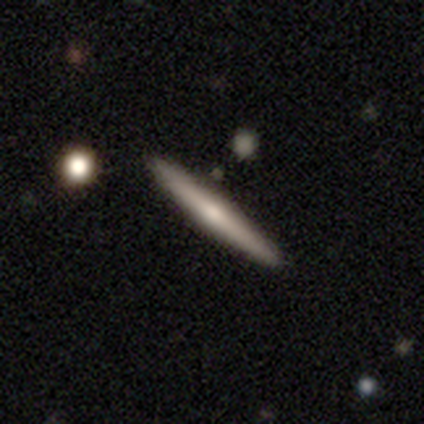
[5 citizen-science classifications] Volunteers were most divided on "edge-on bulge" (2-way tie): none: 50%, rounded: 50%, boxy: 0%. More confident: edge-on disk — yes (100%); merging — none (100%); smooth or featured — featured or disk (80%).